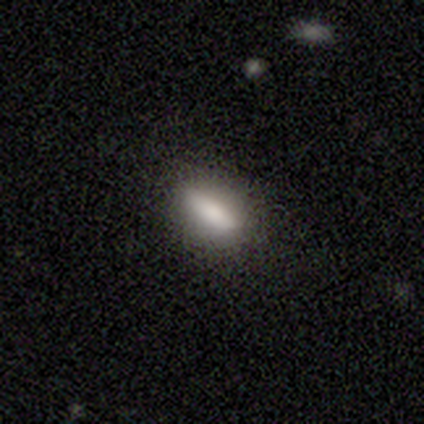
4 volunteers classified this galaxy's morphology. smooth 100%, featured or disk 0%, star or artifact 0%. Down the decision tree: how rounded — in between (50%, tied with cigar-shaped); merging — none (100%).